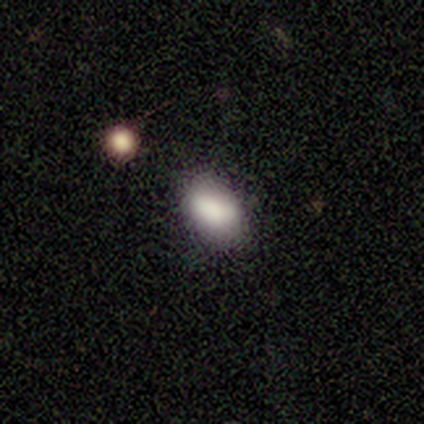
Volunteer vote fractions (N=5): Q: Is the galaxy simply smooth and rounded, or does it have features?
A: smooth — 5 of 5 (100%).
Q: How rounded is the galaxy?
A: in between — 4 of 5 (80%).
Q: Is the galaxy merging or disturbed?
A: none — 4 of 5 (80%).